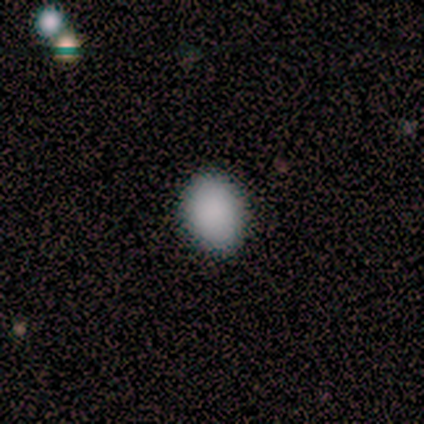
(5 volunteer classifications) Smooth or featured?
  - smooth: 100% *
  - featured or disk: 0%
  - star or artifact: 0%
How rounded?
  - in between: 100% *
  - round: 0%
  - cigar-shaped: 0%
Merging?
  - none: 60% *
  - minor disturbance: 40%
  - major disturbance: 0%
  - merger: 0%